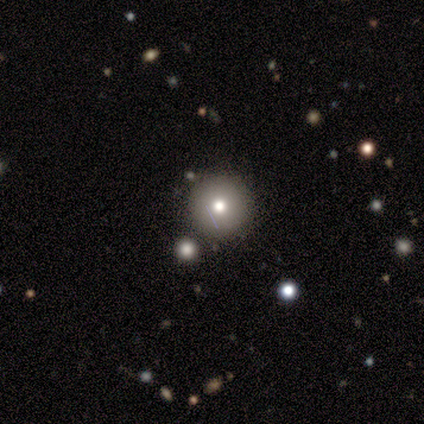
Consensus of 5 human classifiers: Smooth or featured: smooth — 80% (featured or disk — 20%)
How rounded: round — 75% (in between — 25%)
Merging: none — 60% (minor disturbance — 20%)